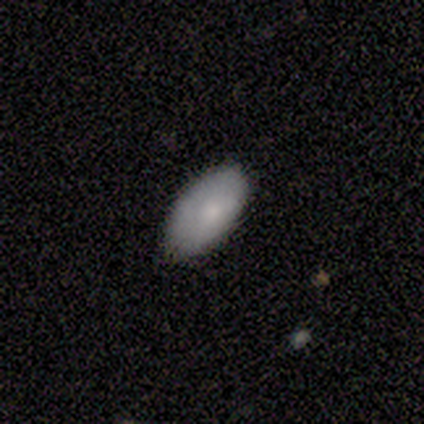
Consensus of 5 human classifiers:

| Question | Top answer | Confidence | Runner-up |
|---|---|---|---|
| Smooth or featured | smooth | 100% | — |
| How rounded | in between | 100% | — |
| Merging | none | 100% | — |